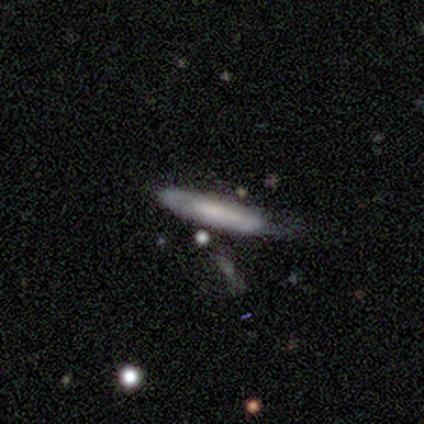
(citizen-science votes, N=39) Smooth or featured? smooth (46%, tied with featured or disk)
How rounded? cigar-shaped (78%)
Merging? none (67%)